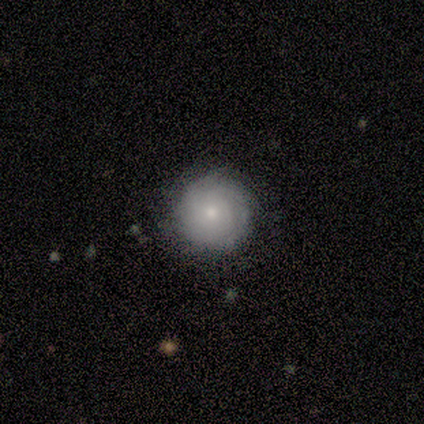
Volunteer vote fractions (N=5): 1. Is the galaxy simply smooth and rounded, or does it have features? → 60% featured or disk, 40% smooth, 0% star or artifact.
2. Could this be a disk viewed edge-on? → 100% no, 0% yes.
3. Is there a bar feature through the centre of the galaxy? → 100% no, 0% strong, 0% weak.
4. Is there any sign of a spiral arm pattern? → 100% yes, 0% no.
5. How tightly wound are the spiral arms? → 100% tight, 0% medium, 0% loose.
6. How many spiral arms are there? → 100% can't tell, 0% 1, 0% 2, 0% 3, 0% 4, 0% more than 4.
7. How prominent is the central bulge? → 100% small, 0% dominant, 0% large, 0% moderate, 0% none.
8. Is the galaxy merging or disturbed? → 100% none, 0% minor disturbance, 0% major disturbance, 0% merger.